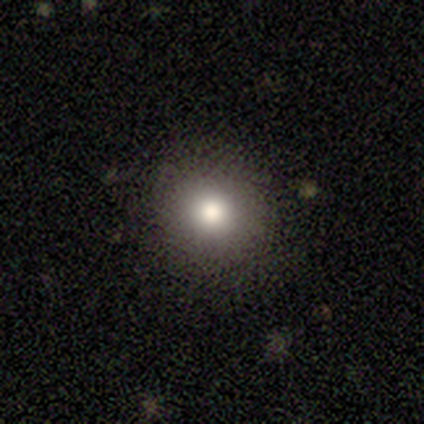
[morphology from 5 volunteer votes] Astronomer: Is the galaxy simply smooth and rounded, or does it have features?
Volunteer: smooth — 60% (runner-up: star or artifact, 40%).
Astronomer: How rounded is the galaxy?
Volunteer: round — 67%.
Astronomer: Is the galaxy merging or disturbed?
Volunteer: none — 100%.